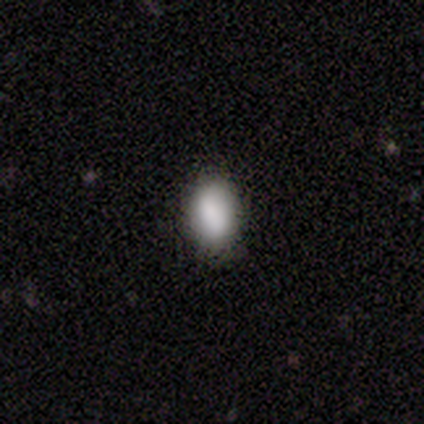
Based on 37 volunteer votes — This is clearly a smooth galaxy (86%). How rounded: clearly in between (94%). Merging: likely none (69%).